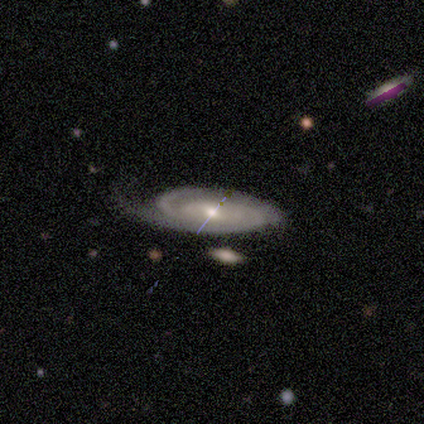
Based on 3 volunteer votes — Smooth or featured?
  - featured or disk: 100% *
  - smooth: 0%
  - star or artifact: 0%
Edge-on disk?
  - no: 100% *
  - yes: 0%
Bar?
  - no: 100% *
  - strong: 0%
  - weak: 0%
Spiral arms?
  - yes: 67% *
  - no: 33%
Spiral winding?
  - tight: 50% * (tied)
  - medium: 50% * (tied)
  - loose: 0%
Spiral arm count?
  - 2: 50% * (tied)
  - can't tell: 50% * (tied)
  - 1: 0%
  - 3: 0%
  - 4: 0%
  - more than 4: 0%
Bulge size?
  - moderate: 67% *
  - small: 33%
  - dominant: 0%
  - large: 0%
  - none: 0%
Merging?
  - none: 33% * (tied)
  - minor disturbance: 33% * (tied)
  - major disturbance: 33% * (tied)
  - merger: 0%